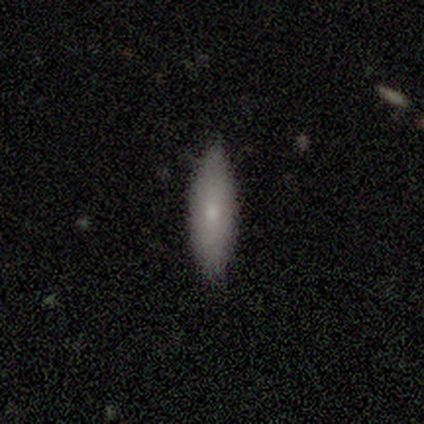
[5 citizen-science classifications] Overall: smooth (100%). How rounded: in between (60%; cigar-shaped 40%). Merging: none (60%; minor disturbance 40%).